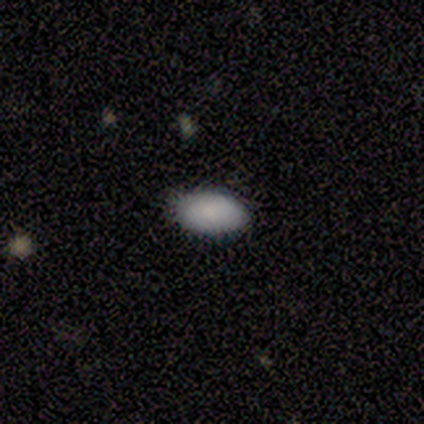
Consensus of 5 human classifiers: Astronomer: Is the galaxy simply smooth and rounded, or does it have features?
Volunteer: smooth — 80%.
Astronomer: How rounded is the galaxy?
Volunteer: in between — 100%.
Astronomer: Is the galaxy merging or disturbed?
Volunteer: none — 80%.